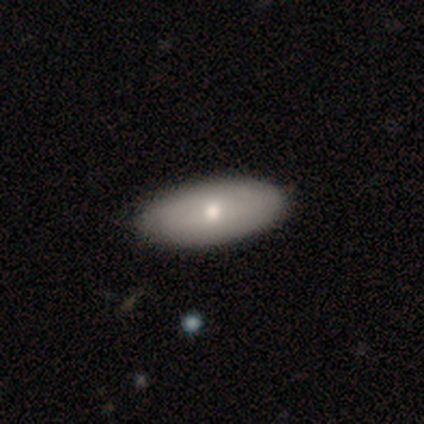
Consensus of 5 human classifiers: Smooth or featured? 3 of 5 (60%) said featured or disk. Edge-on disk? 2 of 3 (67%) said no. Bar? 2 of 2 (100%) said no. Spiral arms? 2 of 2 (100%) said no. Bulge size? 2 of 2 (100%) said moderate. Merging? 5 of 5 (100%) said none.